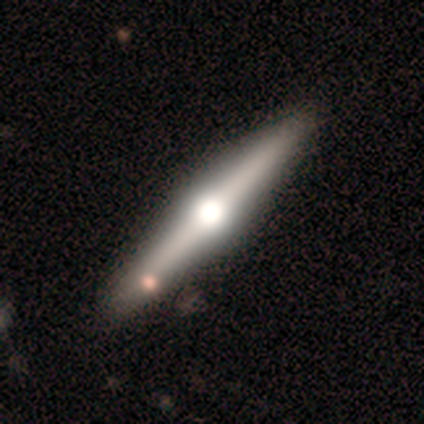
A featured or disk galaxy (100%) viewed edge-on (100%) with a rounded central bulge (100%).

Vote fractions:
- Smooth or featured? featured or disk: 100% / smooth: 0% / star or artifact: 0%
- Edge-on disk? yes: 100% / no: 0%
- Edge-on bulge? rounded: 100% / boxy: 0% / none: 0%
- Merging? none: 80% / minor disturbance: 20% / major disturbance: 0% / merger: 0%